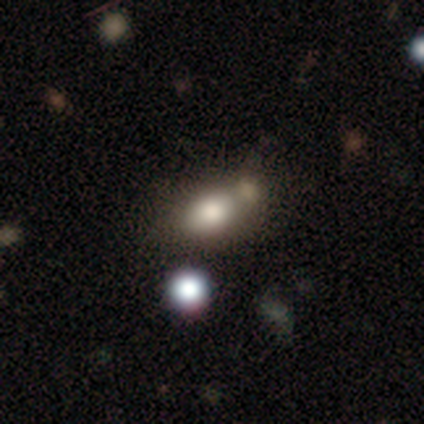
Smooth or featured?
  - smooth: 64% *
  - featured or disk: 23%
  - star or artifact: 13%
How rounded?
  - in between: 92% *
  - round: 8%
  - cigar-shaped: 0%
Merging?
  - merger: 44% *
  - none: 35%
  - minor disturbance: 9%
  - major disturbance: 6%